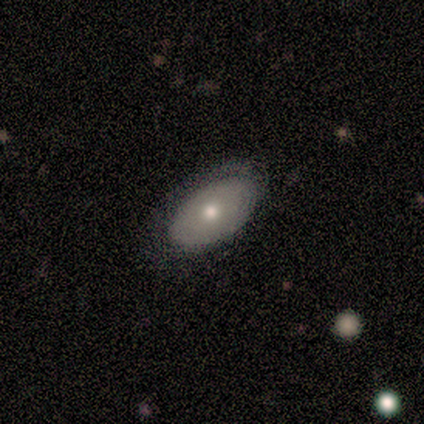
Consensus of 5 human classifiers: Smooth or featured?
  - featured or disk: 60% *
  - smooth: 20%
  - star or artifact: 20%
Edge-on disk?
  - no: 67% *
  - yes: 33%
Bar?
  - no: 100% *
  - strong: 0%
  - weak: 0%
Spiral arms?
  - no: 100% *
  - yes: 0%
Bulge size?
  - moderate: 50% * (tied)
  - none: 50% * (tied)
  - dominant: 0%
  - large: 0%
  - small: 0%
Merging?
  - none: 75% *
  - minor disturbance: 25%
  - major disturbance: 0%
  - merger: 0%